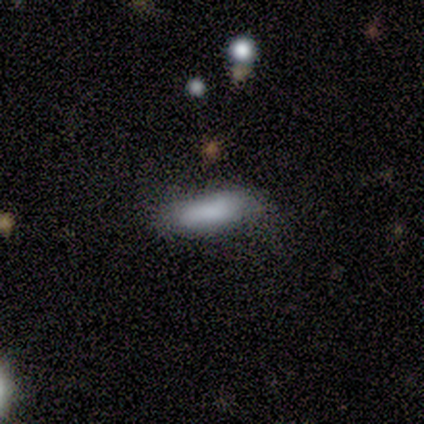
A smooth galaxy with no disk features (100%) that is in between round and cigar-shaped (60%).

Vote fractions:
- Smooth or featured? smooth: 100% / featured or disk: 0% / star or artifact: 0%
- How rounded? in between: 60% / cigar-shaped: 40% / round: 0%
- Merging? none: 90% / minor disturbance: 10% / major disturbance: 0% / merger: 0%